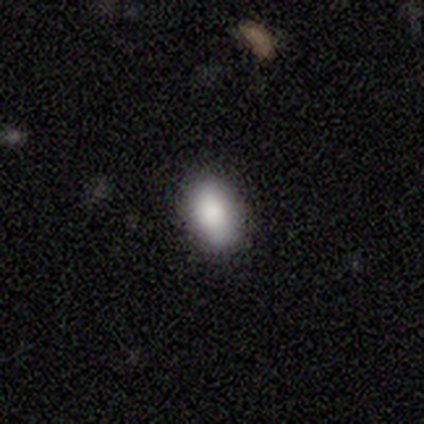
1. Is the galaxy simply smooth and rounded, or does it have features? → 84% smooth, 8% featured or disk, 8% star or artifact.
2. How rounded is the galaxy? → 90% in between, 6% round, 3% cigar-shaped.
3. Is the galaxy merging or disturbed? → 91% none, 9% minor disturbance, 0% major disturbance, 0% merger.